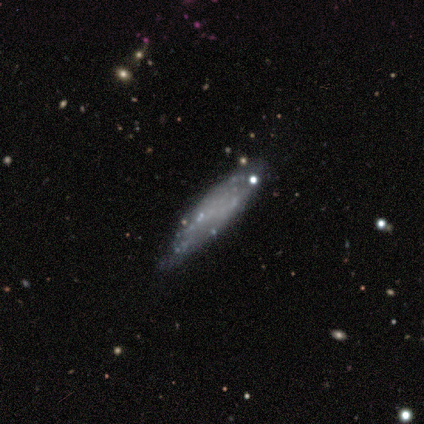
A smooth galaxy with no disk features (70%) that is cigar-shaped (57%).

Vote fractions:
- Smooth or featured? smooth: 70% / featured or disk: 20% / star or artifact: 10%
- How rounded? cigar-shaped: 57% / in between: 43% / round: 0%
- Merging? none: 78% / minor disturbance: 22% / major disturbance: 0% / merger: 0%